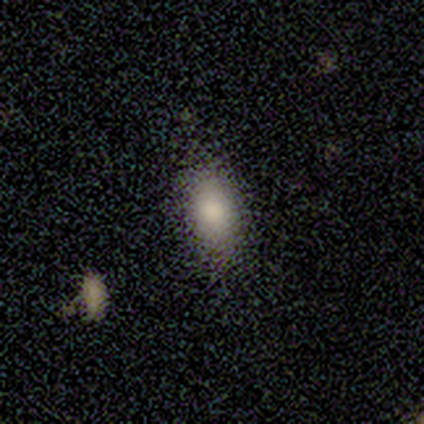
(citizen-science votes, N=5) Overall: smooth (80%). How rounded: in between (75%). Merging: none (75%).